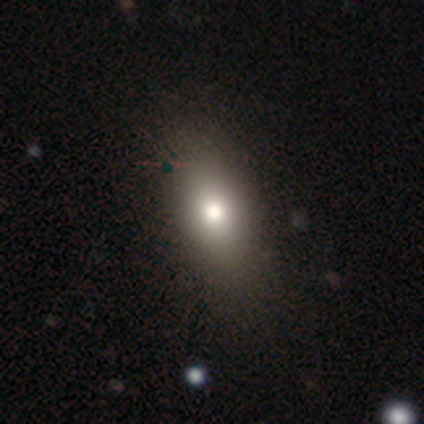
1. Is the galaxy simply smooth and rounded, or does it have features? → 80% smooth, 12% featured or disk, 7% star or artifact.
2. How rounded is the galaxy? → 85% in between, 9% round, 6% cigar-shaped.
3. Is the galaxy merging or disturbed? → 63% none, 11% minor disturbance, 0% major disturbance, 0% merger.